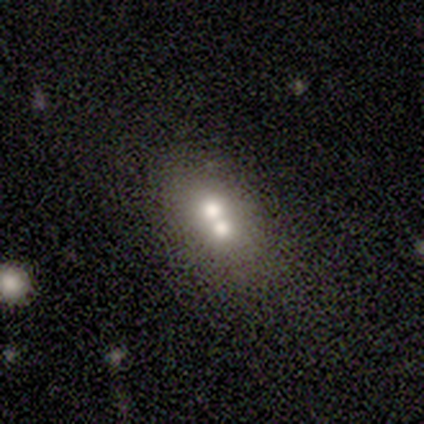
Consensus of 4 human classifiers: This appears to be a smooth galaxy with no disk features (50%, tied with featured or disk) that is round (50%, tied with in between). Merging: merger (75%).